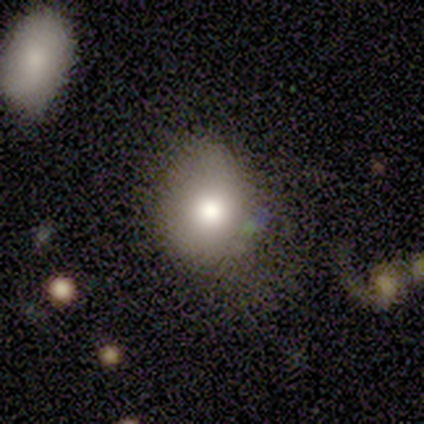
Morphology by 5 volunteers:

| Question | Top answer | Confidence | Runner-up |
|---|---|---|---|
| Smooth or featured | smooth | 80% | featured or disk (20%) |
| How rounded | round | 50% | tied: in between (50%) |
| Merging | major disturbance | 40% | none (20%) |